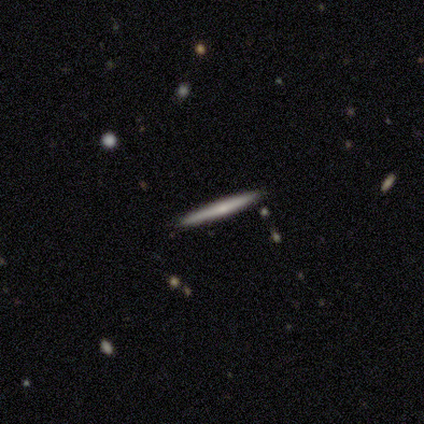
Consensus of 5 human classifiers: Morphology: type=smooth (40%, tied with featured or disk); roundness=cigar-shaped (100%); merging=none (100%).